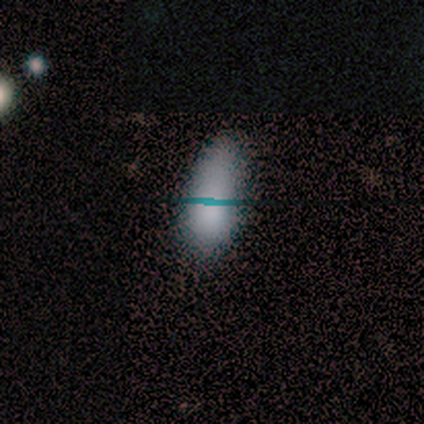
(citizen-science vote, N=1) This is clearly a smooth galaxy (100%). How rounded: clearly in between (100%). Merging: clearly none (100%).